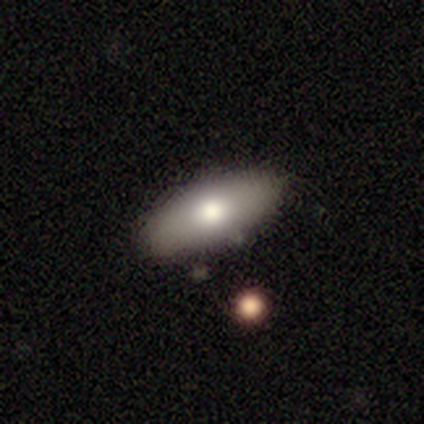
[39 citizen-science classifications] Volunteers were most divided on "merging": none: 71%, minor disturbance: 24%, major disturbance: 3%, merger: 3%. More confident: how rounded — in between (94%); smooth or featured — smooth (82%).